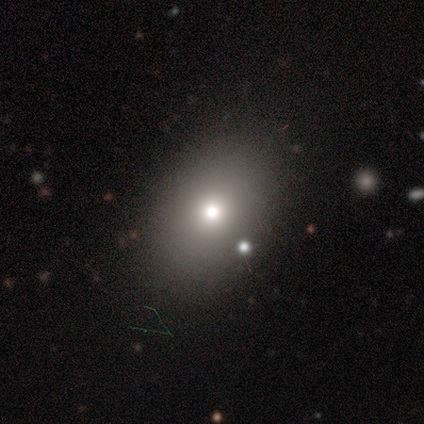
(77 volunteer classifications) Smooth or featured? 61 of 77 (79%) said smooth. How rounded? 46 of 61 (75%) said in between. Merging? 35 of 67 (52%) said none.